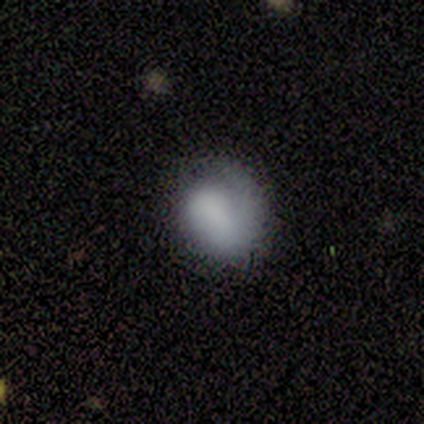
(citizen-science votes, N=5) smooth_or_featured: smooth (p=0.60) [alt: featured or disk p=0.40]
how_rounded: round (p=1.00)
merging: none (p=0.80) [alt: minor disturbance p=0.20]